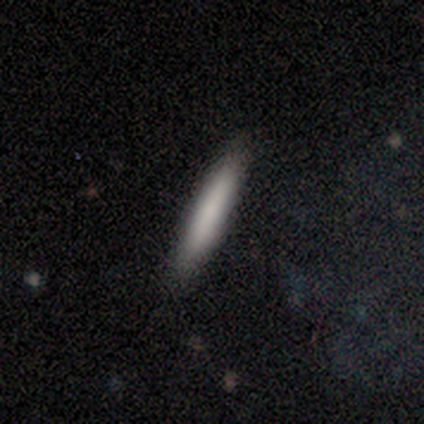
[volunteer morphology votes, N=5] smooth_or_featured: smooth (p=0.60) [alt: featured or disk p=0.40]
how_rounded: cigar-shaped (p=0.67) [alt: in between p=0.33]
merging: none (p=1.00)